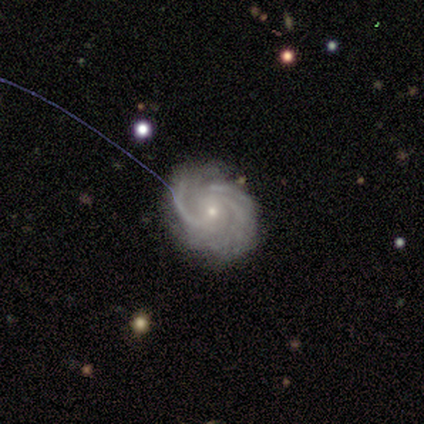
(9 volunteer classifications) smooth-or-featured: featured or disk: 89% | smooth: 11% | star or artifact: 0%
  disk-edge-on: no: 100% | yes: 0%
    bar: no: 62% | weak: 38% | strong: 0%
    has-spiral-arms: yes: 100% | no: 0%
      spiral-winding: tight: 62% | medium: 38% | loose: 0%
      spiral-arm-count: can't tell: 50% | 3: 25% | 4: 12% | more than 4: 12% | 1: 0% | 2: 0%
    bulge-size: small: 100% | dominant: 0% | large: 0% | moderate: 0% | none: 0%
  merging: none: 67% | major disturbance: 22% | minor disturbance: 11% | merger: 0%